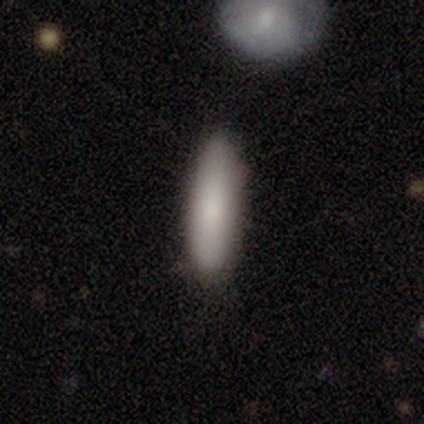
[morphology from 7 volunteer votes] smooth_or_featured: smooth (p=0.86) [alt: featured or disk p=0.14]
how_rounded: in between (p=0.67) [alt: cigar-shaped p=0.33]
merging: none (p=0.86) [alt: minor disturbance p=0.14]